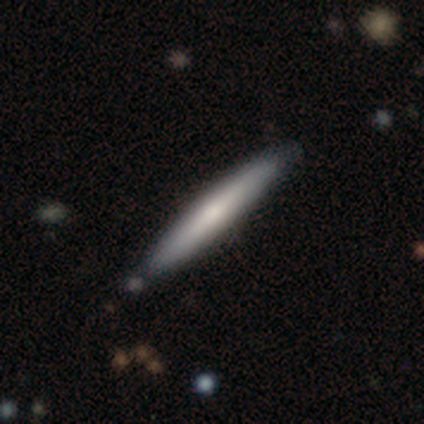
smooth-or-featured: smooth: 60% | featured or disk: 20% | star or artifact: 20%
  how-rounded: cigar-shaped: 100% | round: 0% | in between: 0%
  merging: none: 75% | minor disturbance: 25% | major disturbance: 0% | merger: 0%